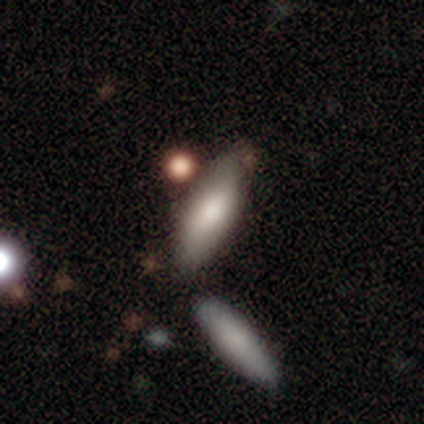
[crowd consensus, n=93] This is clearly a smooth galaxy (84%). How rounded: possibly in between (58%). Merging: likely none (64%).